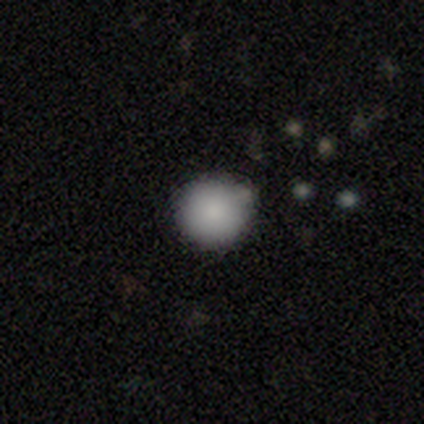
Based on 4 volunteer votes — A smooth galaxy with no disk features (100%) that is round (100%).

Vote fractions:
- Smooth or featured? smooth: 100% / featured or disk: 0% / star or artifact: 0%
- How rounded? round: 100% / in between: 0% / cigar-shaped: 0%
- Merging? none: 75% / minor disturbance: 25% / major disturbance: 0% / merger: 0%